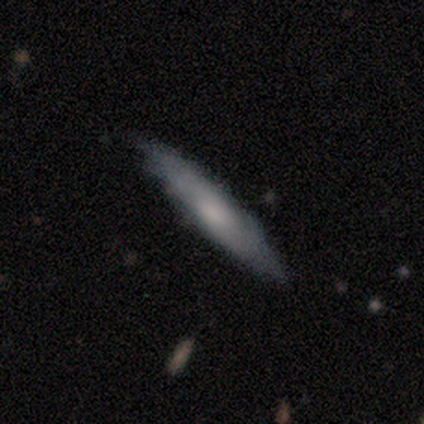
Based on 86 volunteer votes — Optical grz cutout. It shows a smooth galaxy with no disk features (52%) that is cigar-shaped (91%). Merging: none (79%).